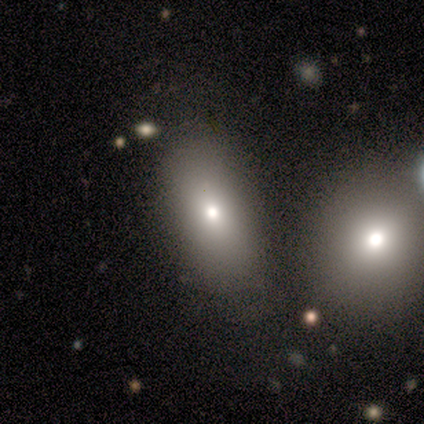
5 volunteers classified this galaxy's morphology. Q: Smooth or featured?
A: smooth (100%)
Q: How rounded?
A: in between (80%); runner-up: round (20%)
Q: Merging?
A: none (60%); runner-up: minor disturbance (20%)